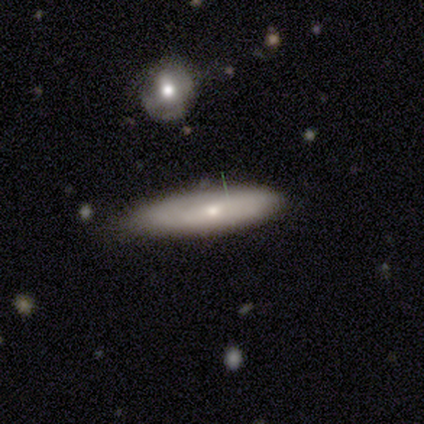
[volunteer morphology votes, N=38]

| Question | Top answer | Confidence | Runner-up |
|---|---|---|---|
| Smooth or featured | smooth | 74% | featured or disk (24%) |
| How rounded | cigar-shaped | 57% | in between (43%) |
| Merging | none | 68% | minor disturbance (27%) |